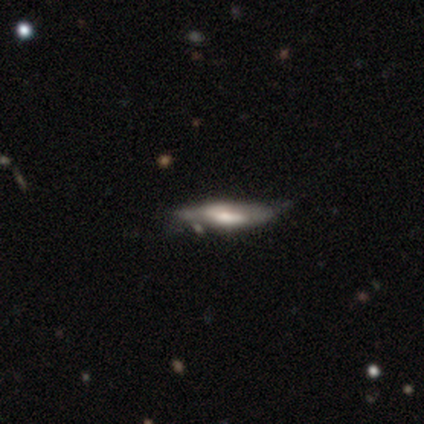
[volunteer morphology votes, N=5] This appears to be a featured or disk galaxy (60%) viewed edge-on (67%) with a boxy central bulge (50%, tied with rounded). Merging: none (25%, tied with minor disturbance, major disturbance and merger).